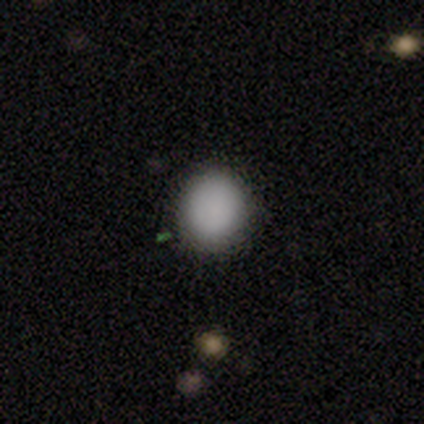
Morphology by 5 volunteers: Smooth or featured?
  - smooth: 100% *
  - featured or disk: 0%
  - star or artifact: 0%
How rounded?
  - round: 100% *
  - in between: 0%
  - cigar-shaped: 0%
Merging?
  - none: 80% *
  - major disturbance: 20%
  - minor disturbance: 0%
  - merger: 0%